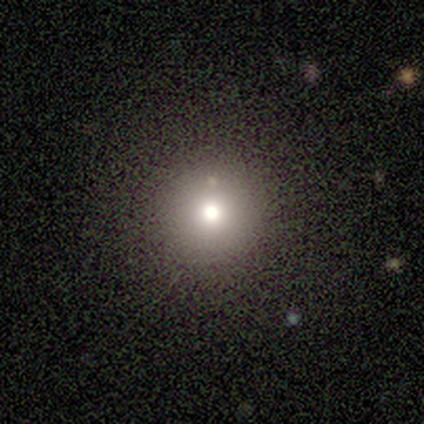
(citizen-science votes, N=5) Smooth or featured? 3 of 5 (60%) said smooth. How rounded? 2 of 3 (67%) said round. Merging? 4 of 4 (100%) said none.